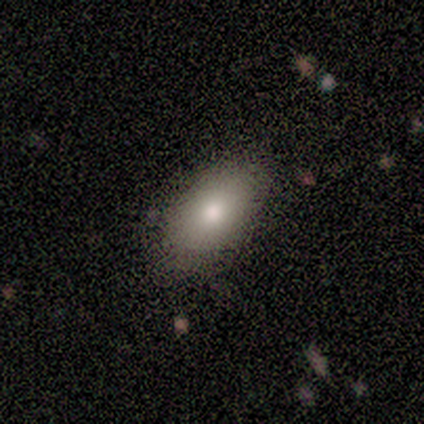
Volunteers were most divided on "smooth or featured": smooth: 87%, featured or disk: 7%, star or artifact: 7%. More confident: merging — none (100%); how rounded — in between (92%).